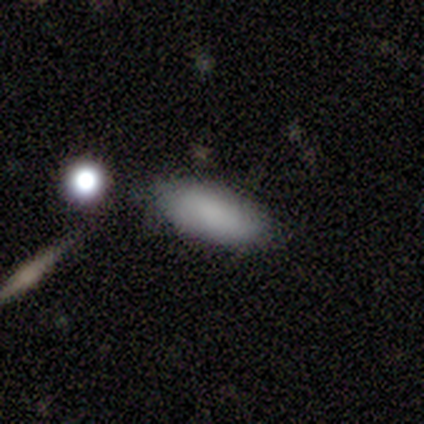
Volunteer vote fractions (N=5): This is clearly a smooth galaxy (100%). How rounded: clearly in between (100%). Merging: clearly none (80%).